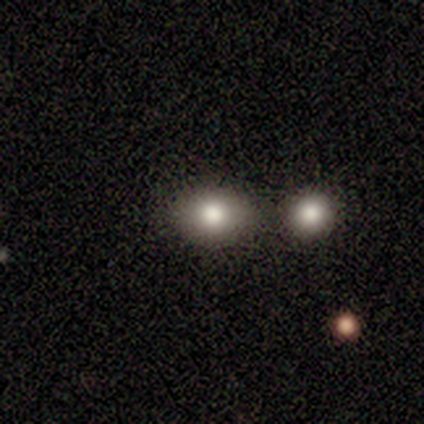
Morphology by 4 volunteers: A smooth galaxy with no disk features (75%) that is in between round and cigar-shaped (67%).

Vote fractions:
- Smooth or featured? smooth: 75% / star or artifact: 25% / featured or disk: 0%
- How rounded? in between: 67% / round: 33% / cigar-shaped: 0%
- Merging? merger: 100% / none: 0% / minor disturbance: 0% / major disturbance: 0%